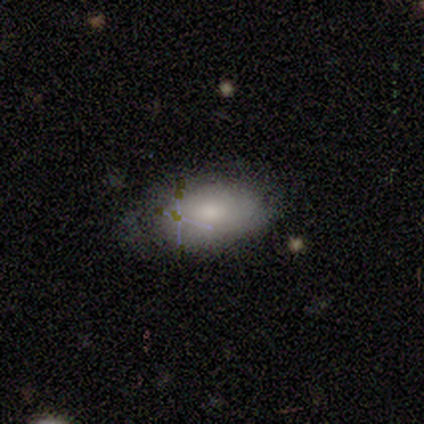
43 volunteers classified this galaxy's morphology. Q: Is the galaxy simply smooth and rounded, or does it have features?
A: smooth — 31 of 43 (72%).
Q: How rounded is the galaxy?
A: in between — 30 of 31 (97%).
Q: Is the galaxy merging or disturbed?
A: none — 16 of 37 (43%).